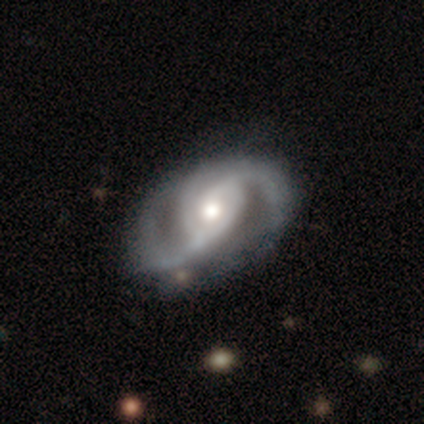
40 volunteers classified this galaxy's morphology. smooth-or-featured: featured or disk: 90% | smooth: 10% | star or artifact: 0%
  disk-edge-on: no: 97% | yes: 3%
    bar: no: 54% | weak: 26% | strong: 20%
    has-spiral-arms: yes: 97% | no: 3%
      spiral-winding: medium: 74% | loose: 21% | tight: 6%
      spiral-arm-count: 2: 74% | 3: 15% | can't tell: 9% | 1: 3% | 4: 0% | more than 4: 0%
    bulge-size: moderate: 63% | large: 20% | small: 17% | dominant: 0% | none: 0%
  merging: none: 62% | minor disturbance: 22% | major disturbance: 15% | merger: 0%